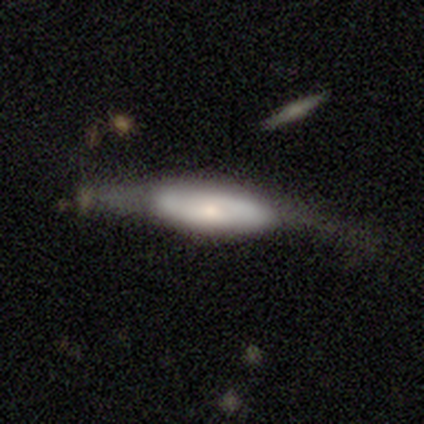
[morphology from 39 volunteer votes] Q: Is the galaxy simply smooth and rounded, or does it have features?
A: smooth — 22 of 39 (56%).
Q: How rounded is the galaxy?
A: cigar-shaped — 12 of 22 (55%).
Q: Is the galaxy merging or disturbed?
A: minor disturbance — 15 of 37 (41%).